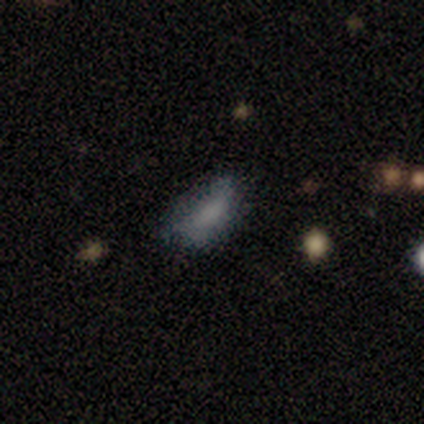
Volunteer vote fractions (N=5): This is likely a smooth galaxy (60%). How rounded: clearly in between (100%). Merging: likely minor disturbance (67%).